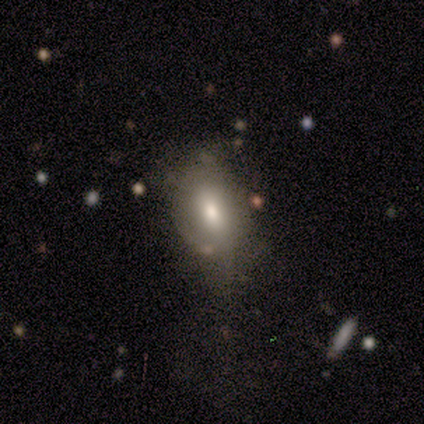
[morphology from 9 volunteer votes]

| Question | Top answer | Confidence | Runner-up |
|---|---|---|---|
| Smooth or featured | smooth | 78% | featured or disk (11%) |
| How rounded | in between | 86% | cigar-shaped (14%) |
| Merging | minor disturbance | 50% | none (25%) |